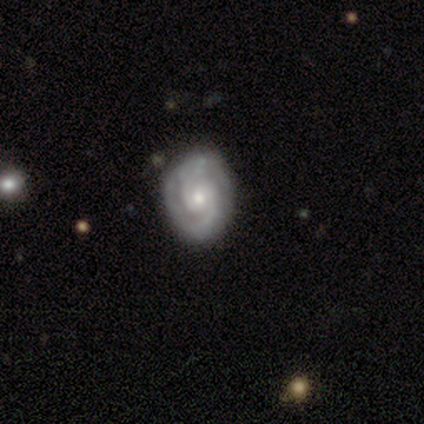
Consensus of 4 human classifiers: featured or disk 75%, smooth 25%, star or artifact 0%. Down the decision tree: edge-on disk — no (100%); bar — weak (67%); spiral arms — yes (100%); spiral arm count — 2 (100%); spiral winding — medium (67%); bulge size — small (67%); merging — none (100%).